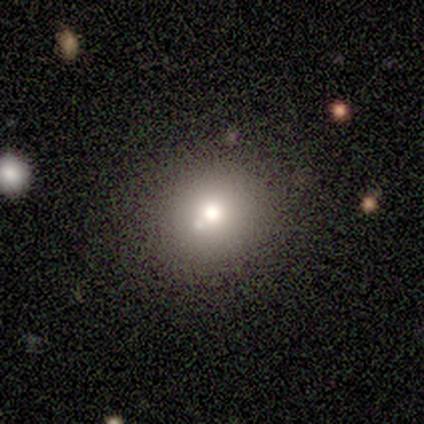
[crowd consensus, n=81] Volunteers were most divided on "smooth or featured": smooth: 64%, featured or disk: 27%, star or artifact: 9%. More confident: how rounded — round (92%); merging — none (72%).